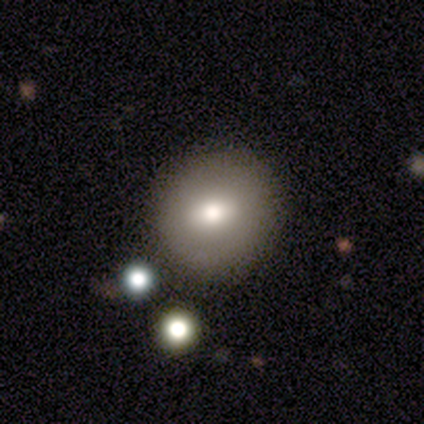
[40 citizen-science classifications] Smooth or featured? smooth (75%)
How rounded? round (87%)
Merging? none (53%)